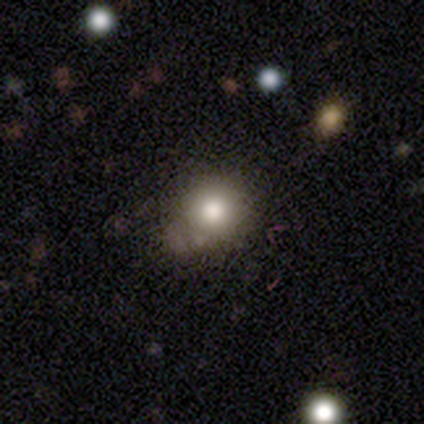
smooth_or_featured: smooth (p=0.78) [alt: star or artifact p=0.23]
how_rounded: round (p=0.90) [alt: in between p=0.10]
merging: none (p=0.71) [alt: minor disturbance p=0.16]